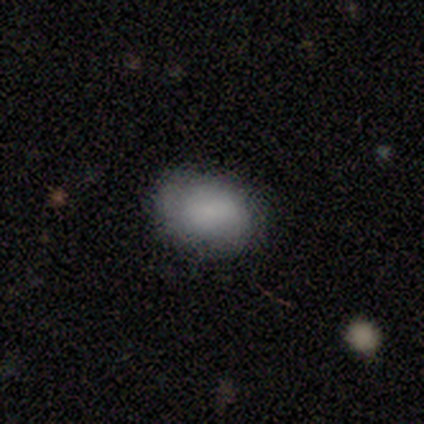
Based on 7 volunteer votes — Smooth or featured: smooth — 86% (star or artifact — 14%)
How rounded: in between — 83% (round — 17%)
Merging: none — 67% (minor disturbance — 33%)